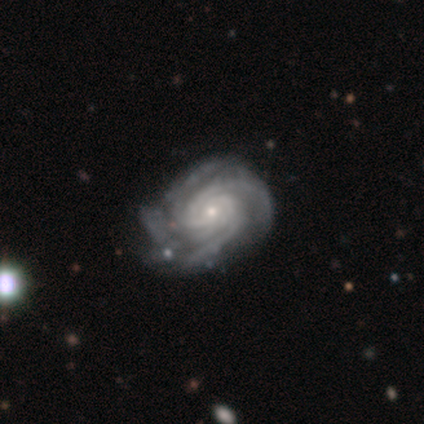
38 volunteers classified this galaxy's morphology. smooth-or-featured: featured or disk: 89% | smooth: 11% | star or artifact: 0%
  disk-edge-on: no: 100% | yes: 0%
    bar: no: 76% | weak: 21% | strong: 3%
    has-spiral-arms: yes: 97% | no: 3%
      spiral-winding: tight: 82% | medium: 15% | loose: 3%
      spiral-arm-count: 4: 36% | can't tell: 33% | 3: 12% | 2: 9% | more than 4: 9% | 1: 0%
    bulge-size: small: 71% | moderate: 24% | large: 3% | none: 3% | dominant: 0%
  merging: none: 45% | minor disturbance: 39% | major disturbance: 16% | merger: 0%